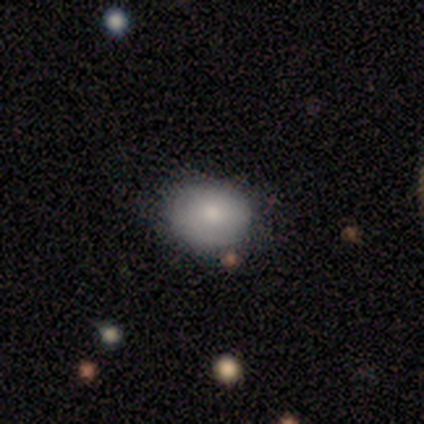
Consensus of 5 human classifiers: A smooth galaxy with no disk features (100%) that is round (60%).

Vote fractions:
- Smooth or featured? smooth: 100% / featured or disk: 0% / star or artifact: 0%
- How rounded? round: 60% / in between: 40% / cigar-shaped: 0%
- Merging? none: 80% / minor disturbance: 20% / major disturbance: 0% / merger: 0%